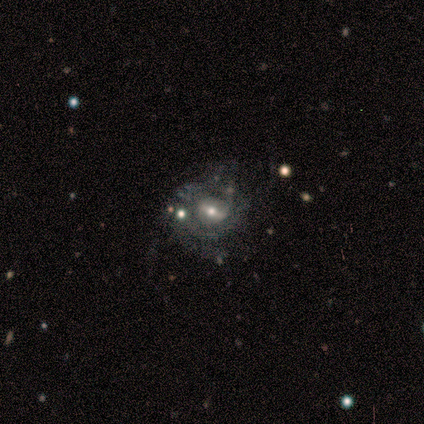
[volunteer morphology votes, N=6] type=featured or disk (100%); edge-on=no (100%); bar=strong (50%); spiral arms=yes (50%, tied with no); winding=tight (67%); arm count=can't tell (67%); bulge=moderate (83%); merging=none (67%).